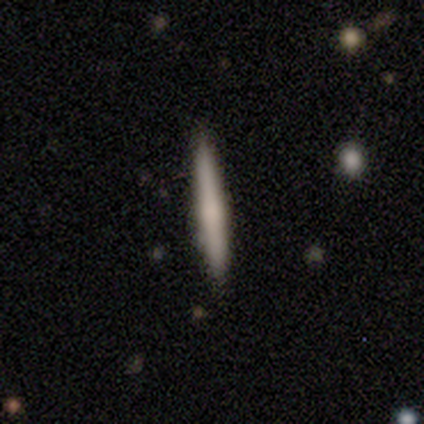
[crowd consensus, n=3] Volunteers were most divided on "merging": none: 67%, minor disturbance: 33%, major disturbance: 0%, merger: 0%. More confident: smooth or featured — smooth (100%); how rounded — cigar-shaped (100%).